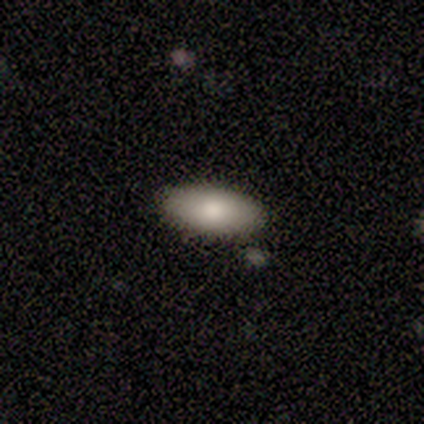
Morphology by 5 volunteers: smooth 100%, featured or disk 0%, star or artifact 0%. Down the decision tree: how rounded — in between (100%); merging — none (80%).